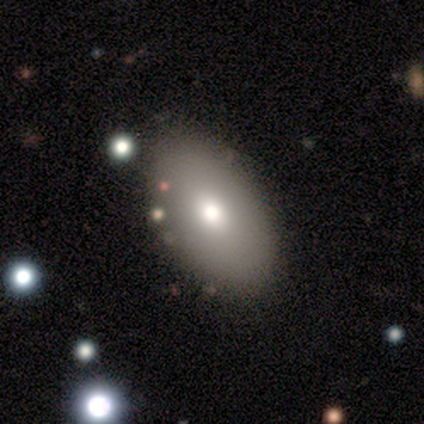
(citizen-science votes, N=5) Overall: smooth (60%; featured or disk 40%). How rounded: in between (67%; round 33%). Merging: none (100%).